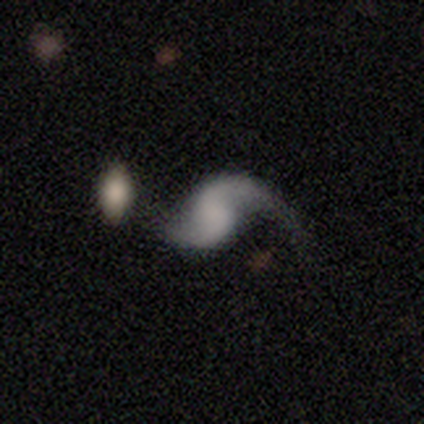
Overall: featured or disk (90%). Edge-on disk: no (100%). Bar: no (67%). Spiral arms: yes (92%). Spiral arm count: 2 (86%). Spiral winding: loose (85%). Bulge size: none (68%). Merging: none (40%; major disturbance 22%).